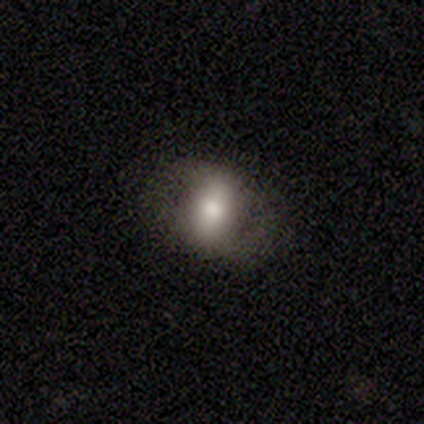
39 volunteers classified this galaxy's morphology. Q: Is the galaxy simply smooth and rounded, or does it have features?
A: smooth — 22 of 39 (56%).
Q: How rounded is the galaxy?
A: in between — 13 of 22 (59%).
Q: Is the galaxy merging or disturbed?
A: none — 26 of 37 (70%).